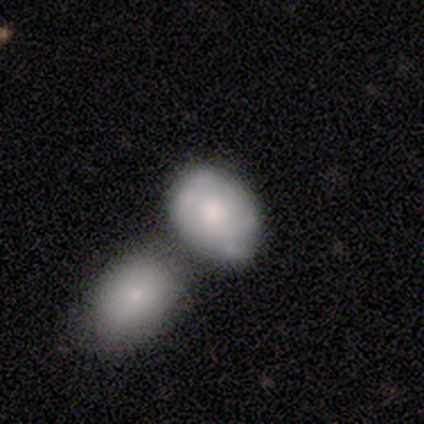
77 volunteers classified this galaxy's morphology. type=smooth (48%); roundness=in between (73%); merging=merger (54%).